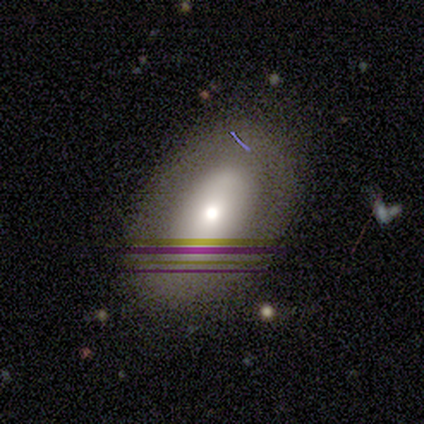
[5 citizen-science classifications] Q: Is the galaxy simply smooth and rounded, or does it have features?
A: featured or disk — 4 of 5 (80%).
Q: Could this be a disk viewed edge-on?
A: yes — 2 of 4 (50%, tied with no).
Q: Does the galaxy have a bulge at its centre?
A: rounded — 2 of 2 (100%).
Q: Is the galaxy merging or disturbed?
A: none — 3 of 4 (75%).